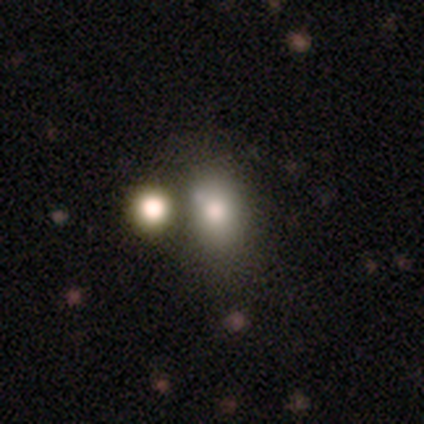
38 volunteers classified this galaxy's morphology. This is likely a smooth galaxy (68%). How rounded: clearly in between (85%). Merging: possibly merger (45%).